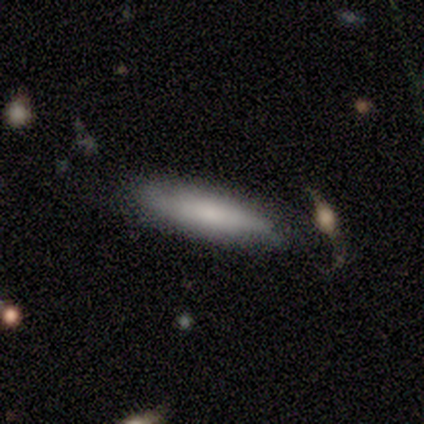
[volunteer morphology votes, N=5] A smooth galaxy with no disk features (80%) that is in between round and cigar-shaped (50%, tied with cigar-shaped).

Vote fractions:
- Smooth or featured? smooth: 80% / featured or disk: 20% / star or artifact: 0%
- How rounded? in between: 50% (tied) / cigar-shaped: 50% (tied) / round: 0%
- Merging? none: 60% / minor disturbance: 20% / merger: 20% / major disturbance: 0%